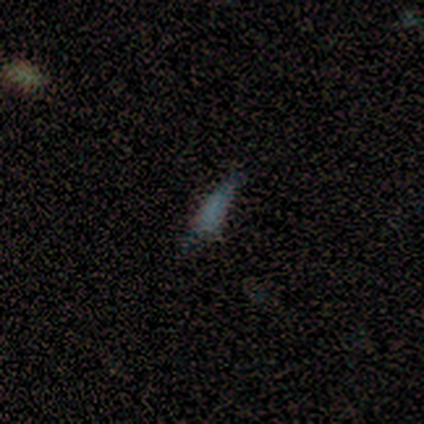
A star or artifact, not a galaxy (80%).